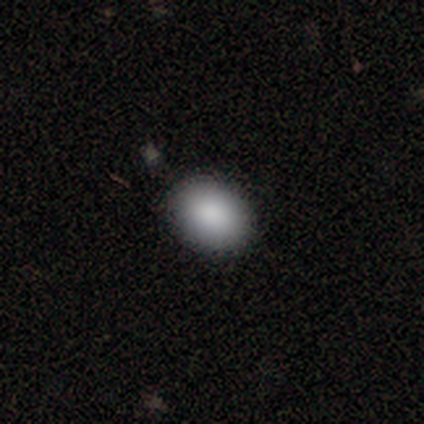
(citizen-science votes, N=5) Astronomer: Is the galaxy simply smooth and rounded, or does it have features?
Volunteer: smooth — 100%.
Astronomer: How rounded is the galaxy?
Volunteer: in between — 60% (runner-up: round, 40%).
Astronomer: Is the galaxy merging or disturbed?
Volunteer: none — 80%.